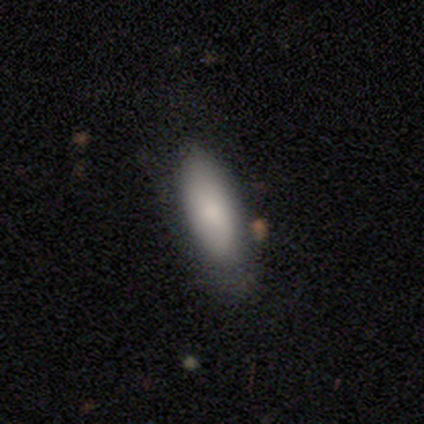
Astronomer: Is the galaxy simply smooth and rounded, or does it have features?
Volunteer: smooth — 100%.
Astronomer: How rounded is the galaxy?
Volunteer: in between — 67%.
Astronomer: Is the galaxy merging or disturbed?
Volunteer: none — 67%.